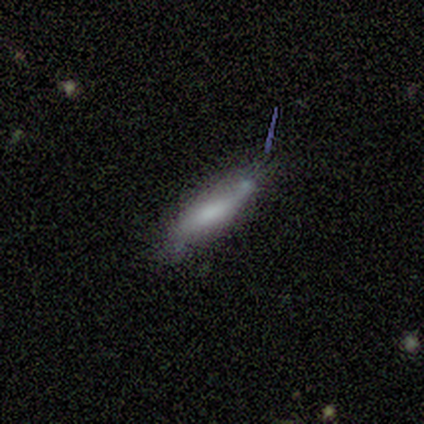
smooth-or-featured: smooth: 67% | featured or disk: 33% | star or artifact: 0%
  how-rounded: cigar-shaped: 75% | in between: 25% | round: 0%
  merging: minor disturbance: 67% | none: 17% | merger: 17% | major disturbance: 0%